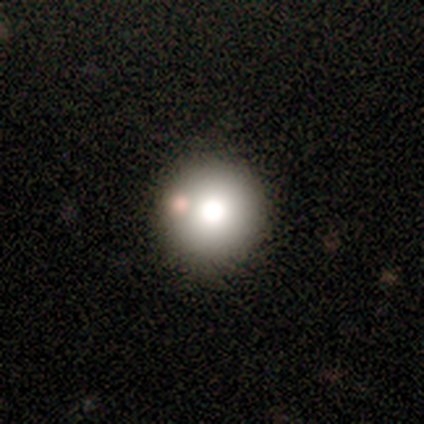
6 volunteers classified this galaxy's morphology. smooth 50%, star or artifact 33%, featured or disk 17%. Down the decision tree: how rounded — round (100%); merging — none (100%).